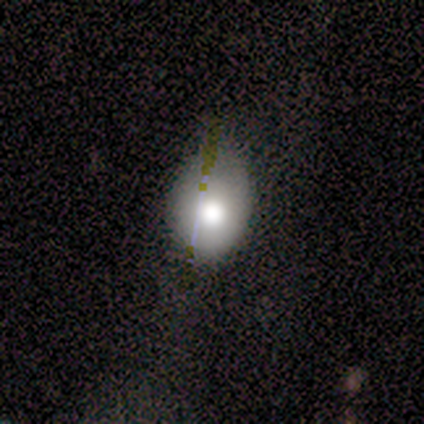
smooth 64%, featured or disk 36%, star or artifact 0%. Down the decision tree: how rounded — round (57%); merging — none (45%, tied with minor disturbance).